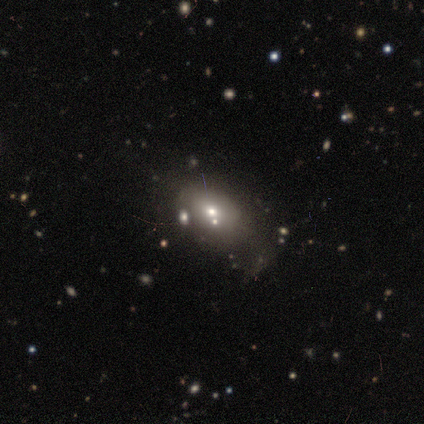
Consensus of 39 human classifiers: Smooth or featured? 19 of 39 (49%) said smooth. How rounded? 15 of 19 (79%) said in between. Merging? 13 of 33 (39%) said none.